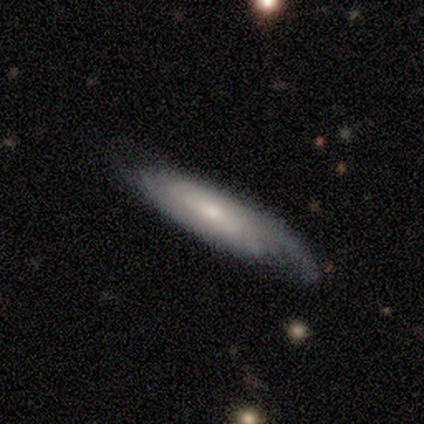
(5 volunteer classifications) smooth-or-featured: smooth: 60% | featured or disk: 40% | star or artifact: 0%
  how-rounded: in between: 67% | cigar-shaped: 33% | round: 0%
  merging: none: 80% | minor disturbance: 20% | major disturbance: 0% | merger: 0%